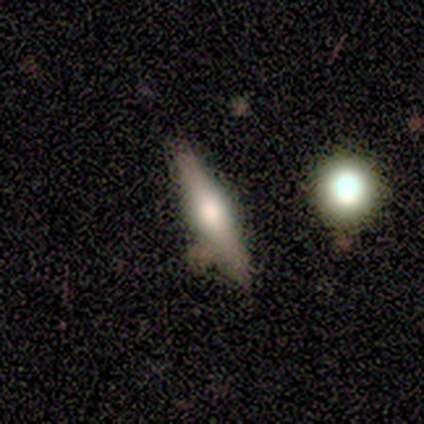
Smooth or featured?
  - featured or disk: 100% *
  - smooth: 0%
  - star or artifact: 0%
Edge-on disk?
  - yes: 100% *
  - no: 0%
Edge-on bulge?
  - rounded: 100% *
  - boxy: 0%
  - none: 0%
Merging?
  - none: 100% *
  - minor disturbance: 0%
  - major disturbance: 0%
  - merger: 0%